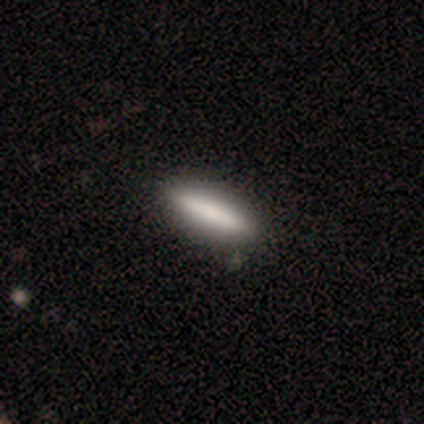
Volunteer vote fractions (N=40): smooth-or-featured: smooth: 75% | featured or disk: 25% | star or artifact: 0%
  how-rounded: cigar-shaped: 73% | in between: 27% | round: 0%
  merging: none: 52% | minor disturbance: 2% | merger: 2% | major disturbance: 0%